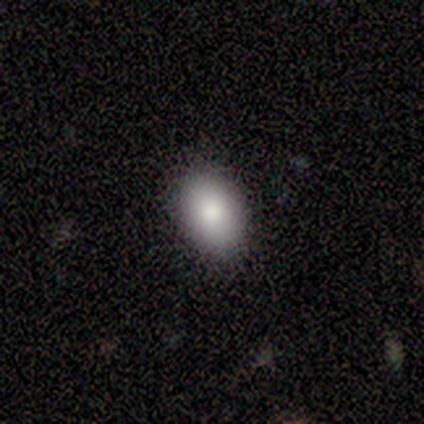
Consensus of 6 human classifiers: Smooth or featured? 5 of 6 (83%) said smooth. How rounded? 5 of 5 (100%) said in between. Merging? 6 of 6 (100%) said none.